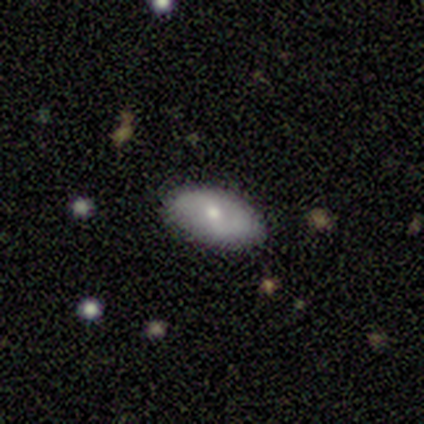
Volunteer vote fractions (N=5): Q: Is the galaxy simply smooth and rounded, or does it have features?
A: smooth — 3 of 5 (60%).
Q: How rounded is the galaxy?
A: in between — 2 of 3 (67%).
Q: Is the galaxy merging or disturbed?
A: none — 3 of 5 (60%).